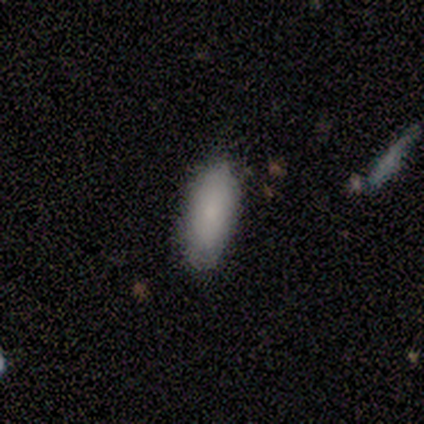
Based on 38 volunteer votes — Smooth or featured? 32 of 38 (84%) said smooth. How rounded? 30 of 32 (94%) said in between. Merging? 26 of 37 (70%) said none.